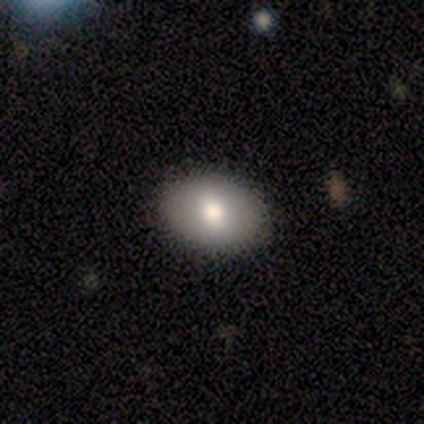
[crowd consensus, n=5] smooth_or_featured: smooth (p=0.80) [alt: featured or disk p=0.20]
how_rounded: in between (p=1.00)
merging: none (p=1.00)